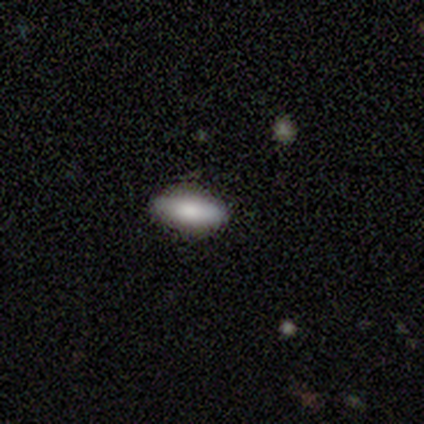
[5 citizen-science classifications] Smooth or featured? smooth (80%)
How rounded? in between (75%)
Merging? none (100%)